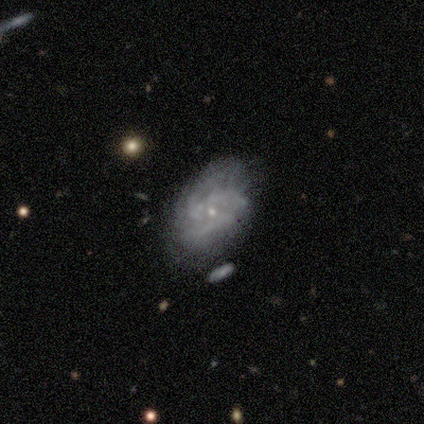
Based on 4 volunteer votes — This appears to be a smooth galaxy with no disk features (50%, tied with featured or disk) that is in between round and cigar-shaped (100%). Merging: none (50%, tied with minor disturbance).